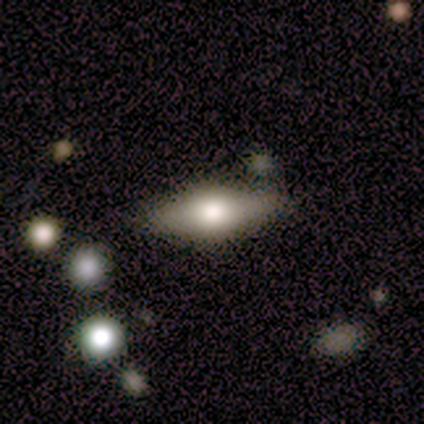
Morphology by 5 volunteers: smooth_or_featured: featured or disk (p=0.60) [alt: smooth p=0.40]
disk_edge_on: yes (p=0.67) [alt: no p=0.33]
edge_on_bulge: rounded (p=1.00)
merging: none (p=0.80) [alt: minor disturbance p=0.20]